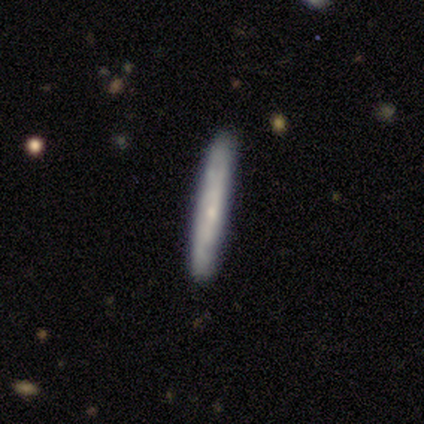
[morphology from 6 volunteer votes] This is likely a smooth galaxy (67%). How rounded: clearly cigar-shaped (100%). Merging: clearly none (83%).